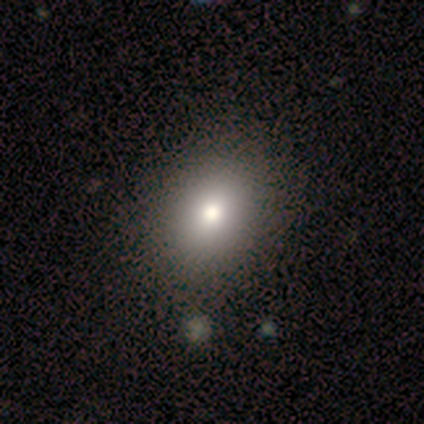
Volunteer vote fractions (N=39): This is likely a smooth galaxy (69%). How rounded: likely in between (67%). Merging: likely none (69%).